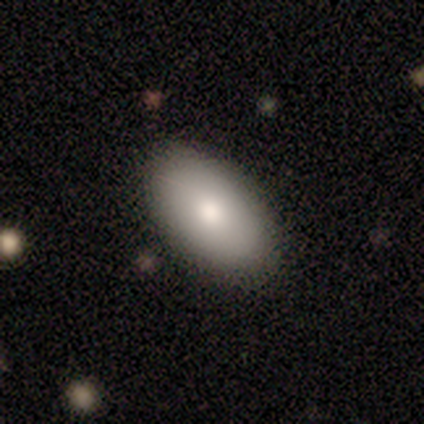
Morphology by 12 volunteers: Overall: smooth (75%). How rounded: in between (100%). Merging: none (92%).